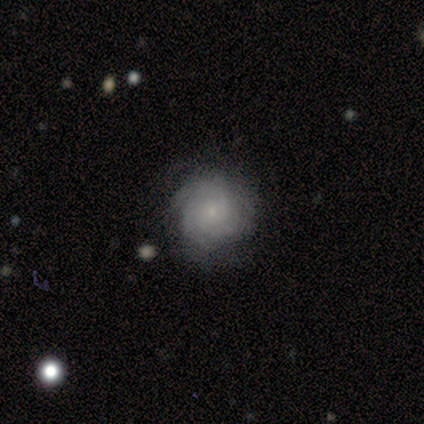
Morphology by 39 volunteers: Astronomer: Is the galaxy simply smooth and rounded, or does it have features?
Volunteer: featured or disk — 49% (runner-up: smooth, 44%).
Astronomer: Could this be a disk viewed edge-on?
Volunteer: no — 95%.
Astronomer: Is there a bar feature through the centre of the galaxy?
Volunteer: no — 83%.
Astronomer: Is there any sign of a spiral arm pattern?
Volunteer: yes — 78%.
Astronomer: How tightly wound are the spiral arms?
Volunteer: tight — 79%.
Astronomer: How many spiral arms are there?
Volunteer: can't tell — 50% (runner-up: 3, 29%).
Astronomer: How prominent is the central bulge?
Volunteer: small — 83%.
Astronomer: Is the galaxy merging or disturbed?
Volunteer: none — 64%.